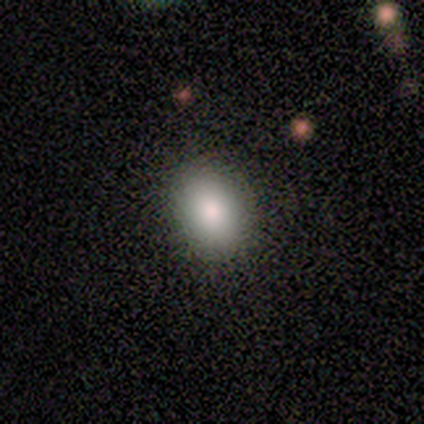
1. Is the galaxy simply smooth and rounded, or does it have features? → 100% smooth, 0% featured or disk, 0% star or artifact.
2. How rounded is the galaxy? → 75% in between, 25% round, 0% cigar-shaped.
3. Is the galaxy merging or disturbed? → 75% none, 25% minor disturbance, 0% major disturbance, 0% merger.